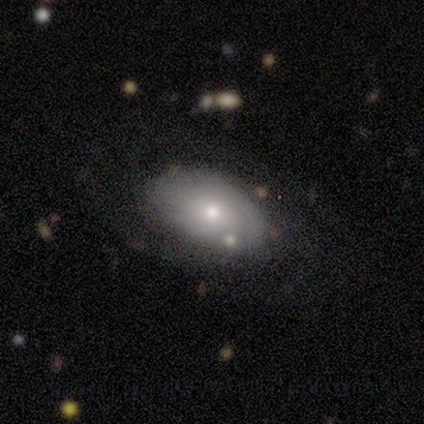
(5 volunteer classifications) This is likely a featured or disk galaxy (60%). It is clearly not viewed edge-on (100%). Bar: clearly no (100%). Spiral arm pattern: likely no (67%). Central bulge: likely moderate (67%). Merging: clearly none (80%).